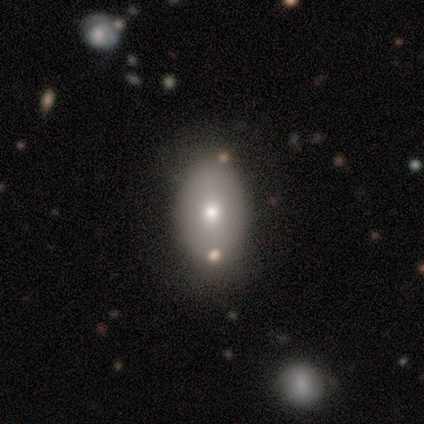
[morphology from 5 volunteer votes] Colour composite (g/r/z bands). It shows a smooth galaxy with no disk features (60%) that is in between round and cigar-shaped (100%). Merging: none (50%).